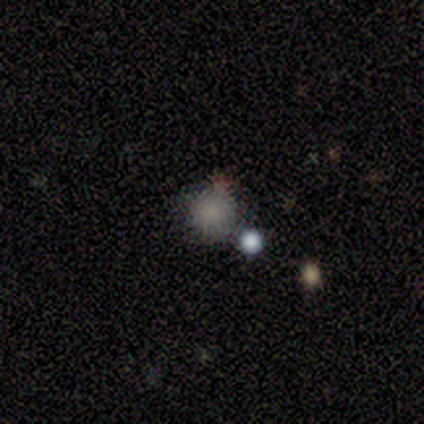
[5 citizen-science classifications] Smooth or featured: smooth — 80% (star or artifact — 20%)
How rounded: round — 100%
Merging: none — 100%